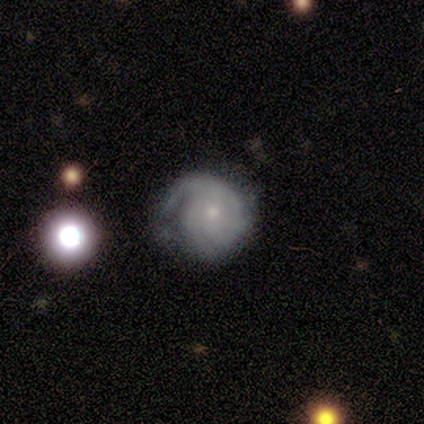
A featured or disk galaxy (69%) with no bar (80%), tight (80%) spiral arms (88%) and a small central bulge (62%). Merging: minor disturbance (45%).